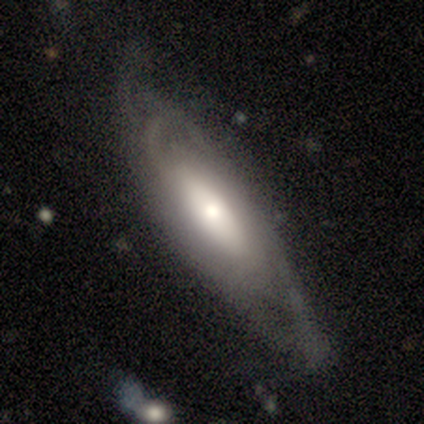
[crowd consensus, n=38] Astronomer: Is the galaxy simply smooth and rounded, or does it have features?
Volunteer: featured or disk — 68%.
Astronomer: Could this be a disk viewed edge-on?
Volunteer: no — 85%.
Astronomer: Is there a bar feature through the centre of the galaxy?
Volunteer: no — 50% (runner-up: weak, 32%).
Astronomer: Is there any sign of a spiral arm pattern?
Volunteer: yes — 86%.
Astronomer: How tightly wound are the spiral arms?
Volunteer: medium — 37% (runner-up: tight, 32%).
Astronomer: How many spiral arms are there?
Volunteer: can't tell — 74%.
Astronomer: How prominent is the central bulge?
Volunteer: moderate — 41% (runner-up: small, 32%).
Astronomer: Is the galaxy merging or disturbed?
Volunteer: none — 66%.